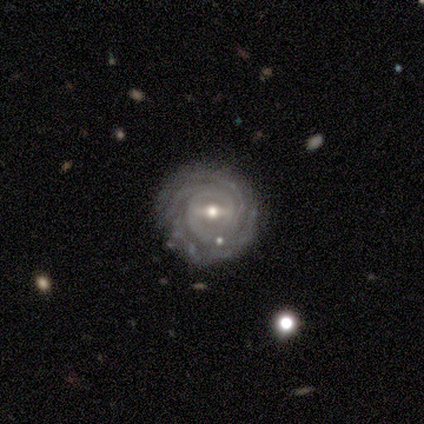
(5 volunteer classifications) Overall: featured or disk (100%). Edge-on disk: no (100%). Bar: strong (60%; no 40%). Spiral arms: yes (100%). Spiral arm count: 4 (60%; 3 20%). Spiral winding: tight (100%). Bulge size: small (60%; moderate 40%). Merging: none (80%).